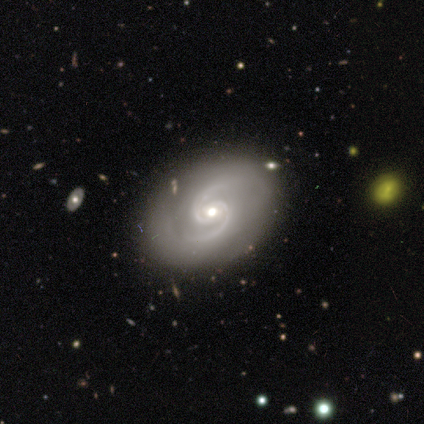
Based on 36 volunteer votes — featured or disk 97%, smooth 3%, star or artifact 0%. Down the decision tree: edge-on disk — no (97%); bar — no (62%); spiral arms — yes (97%); spiral arm count — 2 (100%); spiral winding — medium (82%); bulge size — moderate (59%); merging — none (92%).